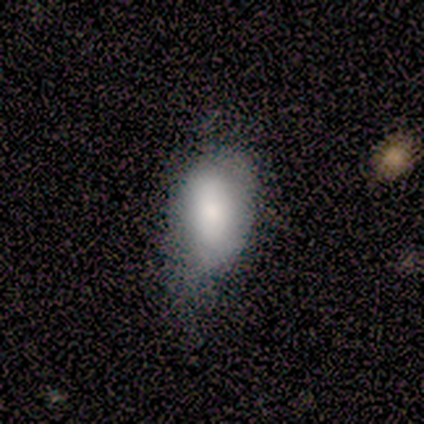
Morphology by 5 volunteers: This appears to be a smooth galaxy with no disk features (100%) that is in between round and cigar-shaped (100%). Merging: minor disturbance (60%).